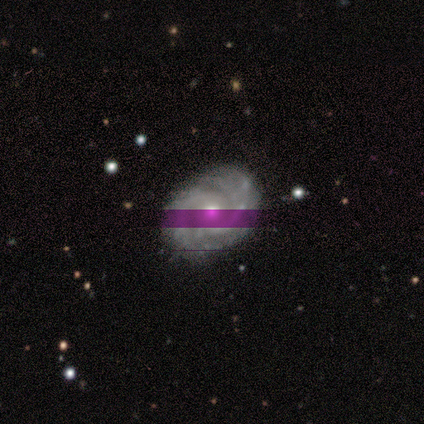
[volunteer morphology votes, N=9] Overall: featured or disk (67%). Edge-on disk: no (100%). Bar: no (67%). Spiral arms: yes (100%). Spiral arm count: 2 (83%). Spiral winding: tight (83%). Bulge size: moderate (67%; small 33%). Merging: none (100%).